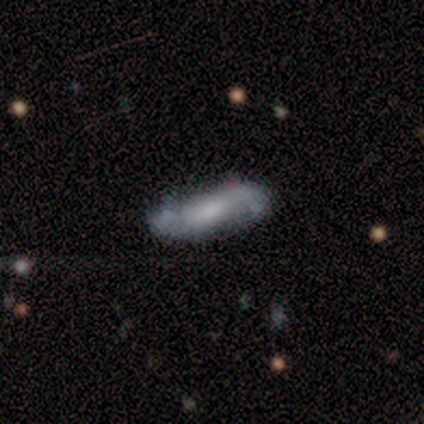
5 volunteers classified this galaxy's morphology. This is clearly a featured or disk galaxy (100%). It is clearly not viewed edge-on (100%). Bar: likely weak (60%). Spiral arm pattern: clearly yes (100%). Spiral arm count: clearly 2 (100%). Spiral winding: clearly loose (80%). Central bulge: likely none (60%). Merging: likely minor disturbance (60%).